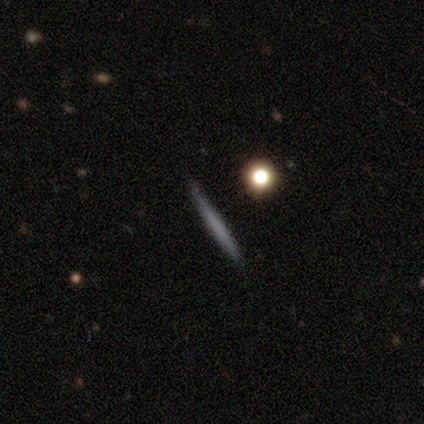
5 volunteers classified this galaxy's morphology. This is clearly a smooth galaxy (80%). How rounded: clearly cigar-shaped (100%). Merging: clearly none (100%).